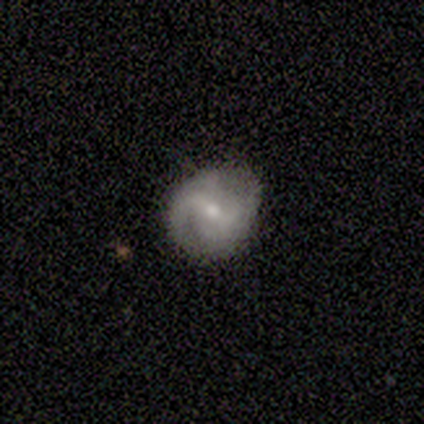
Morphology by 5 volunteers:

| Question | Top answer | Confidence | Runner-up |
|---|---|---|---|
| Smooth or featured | featured or disk | 60% | smooth (40%) |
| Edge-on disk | no | 100% | — |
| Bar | weak | 67% | no (33%) |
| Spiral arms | yes | 100% | — |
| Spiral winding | medium | 67% | tight (33%) |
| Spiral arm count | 1 | 33% | tied: 2 (33%), can't tell (33%) |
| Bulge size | moderate | 67% | none (33%) |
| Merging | none | 80% | minor disturbance (20%) |